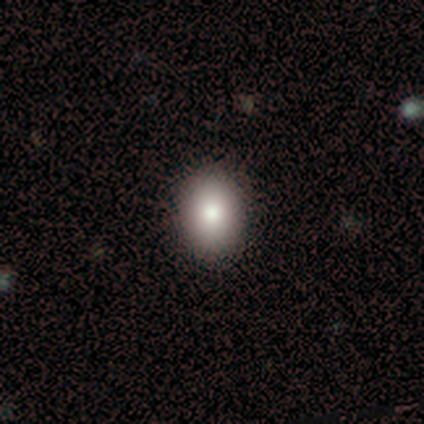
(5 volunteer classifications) smooth-or-featured: smooth: 80% | featured or disk: 20% | star or artifact: 0%
  how-rounded: in between: 100% | round: 0% | cigar-shaped: 0%
  merging: none: 100% | minor disturbance: 0% | major disturbance: 0% | merger: 0%